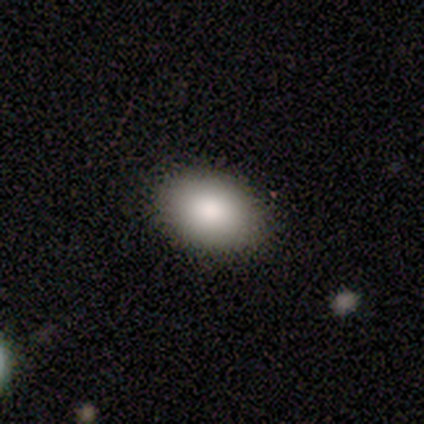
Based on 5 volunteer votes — A smooth galaxy with no disk features (100%) that is in between round and cigar-shaped (100%).

Vote fractions:
- Smooth or featured? smooth: 100% / featured or disk: 0% / star or artifact: 0%
- How rounded? in between: 100% / round: 0% / cigar-shaped: 0%
- Merging? none: 60% / minor disturbance: 40% / major disturbance: 0% / merger: 0%